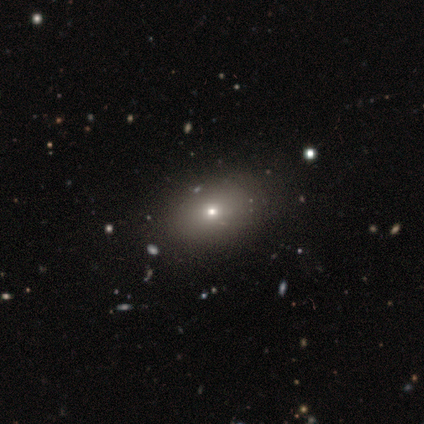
Volunteers were most divided on "merging": none: 60%, minor disturbance: 20%, major disturbance: 20%, merger: 0%. More confident: smooth or featured — smooth (100%); how rounded — in between (80%).